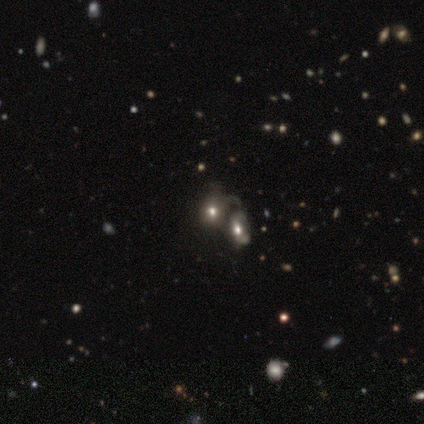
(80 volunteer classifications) This is possibly a smooth galaxy (56%). How rounded: possibly in between (53%). Merging: likely merger (62%).